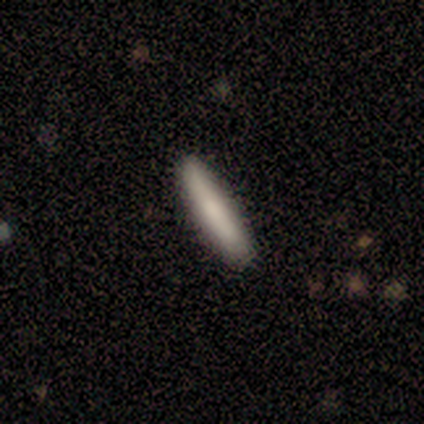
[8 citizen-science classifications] Morphology: type=smooth (88%); roundness=cigar-shaped (100%); merging=none (86%).